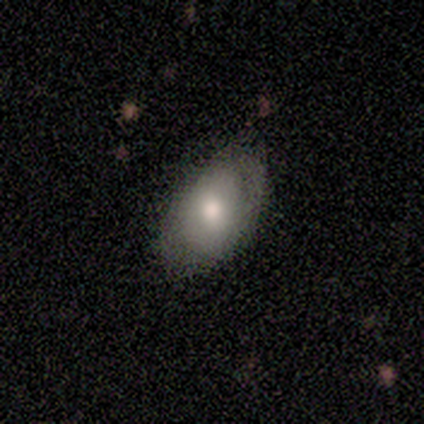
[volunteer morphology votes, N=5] Q: Smooth or featured?
A: smooth (80%); runner-up: featured or disk (20%)
Q: How rounded?
A: in between (100%)
Q: Merging?
A: none (80%); runner-up: minor disturbance (20%)